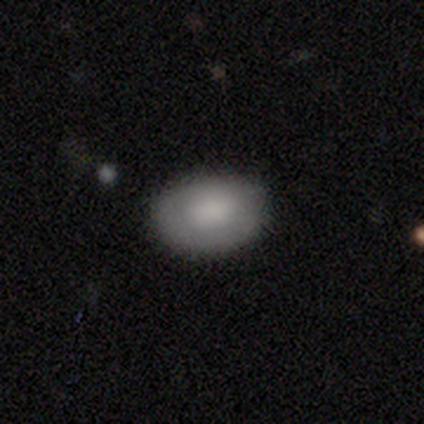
smooth 86%, featured or disk 11%, star or artifact 3%. Down the decision tree: how rounded — in between (84%); merging — none (77%).